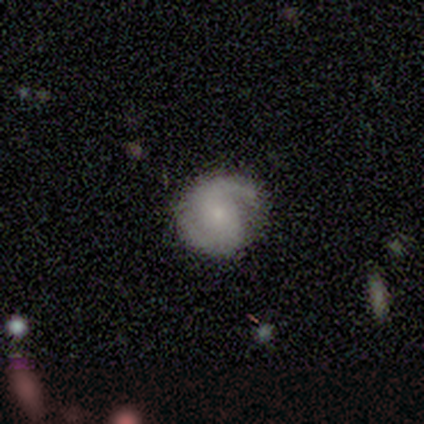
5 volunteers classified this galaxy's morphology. This is clearly a featured or disk galaxy (100%). It is clearly not viewed edge-on (100%). Bar: marginally weak (40%, tied with no). Spiral arm pattern: clearly yes (100%). Spiral arm count: clearly 2 (100%). Spiral winding: likely medium (60%). Central bulge: clearly small (100%). Merging: clearly none (100%).